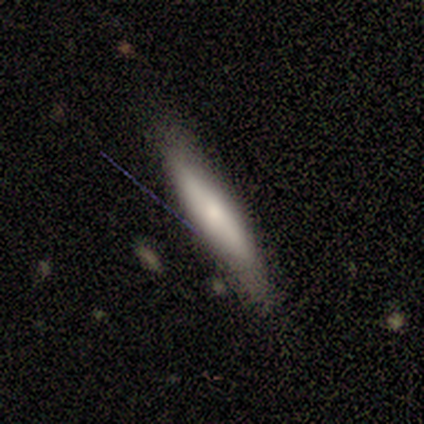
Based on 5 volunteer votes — Overall: smooth (100%). How rounded: cigar-shaped (100%). Merging: none (80%).